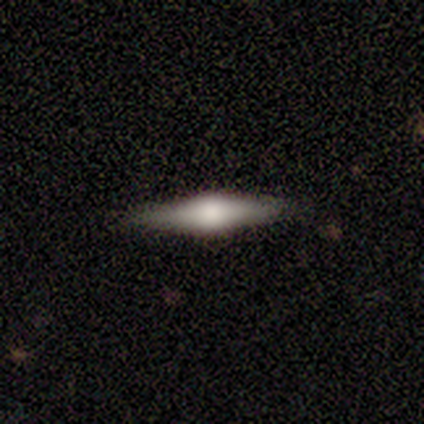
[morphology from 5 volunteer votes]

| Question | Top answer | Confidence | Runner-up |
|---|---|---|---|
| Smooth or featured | featured or disk | 60% | smooth (40%) |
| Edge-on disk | yes | 100% | — |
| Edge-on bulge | rounded | 100% | — |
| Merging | none | 100% | — |